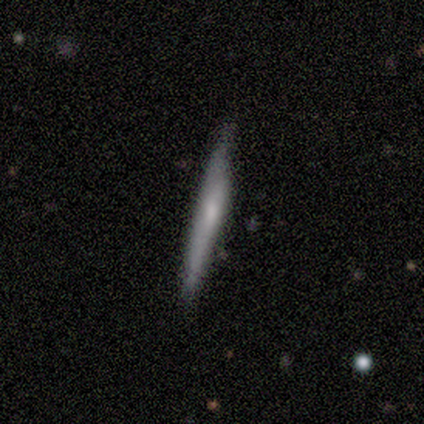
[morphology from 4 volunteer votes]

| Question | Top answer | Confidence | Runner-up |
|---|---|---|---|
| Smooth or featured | smooth | 50% | featured or disk (25%) |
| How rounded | cigar-shaped | 100% | — |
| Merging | none | 100% | — |